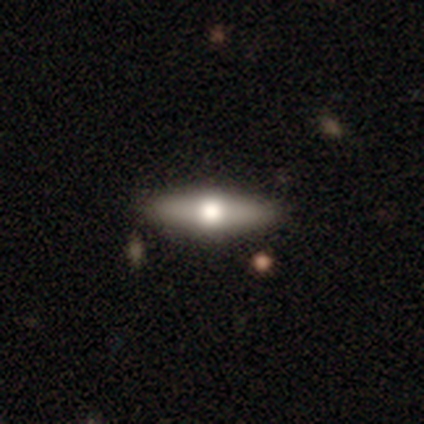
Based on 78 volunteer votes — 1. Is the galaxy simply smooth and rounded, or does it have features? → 53% featured or disk, 42% smooth, 5% star or artifact.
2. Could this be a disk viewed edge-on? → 88% yes, 12% no.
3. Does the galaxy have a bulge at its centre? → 100% rounded, 0% boxy, 0% none.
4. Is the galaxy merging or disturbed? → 51% none, 4% merger, 1% minor disturbance, 0% major disturbance.